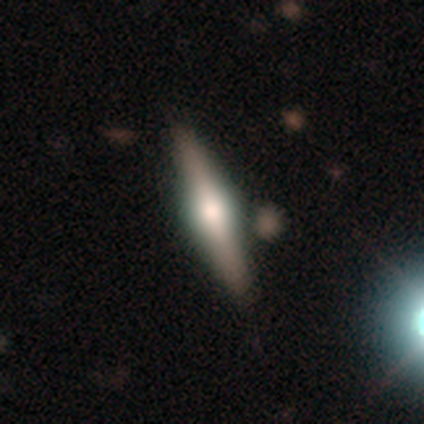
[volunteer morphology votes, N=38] smooth_or_featured: featured or disk (p=0.89) [alt: smooth p=0.05]
disk_edge_on: yes (p=1.00)
edge_on_bulge: rounded (p=0.91) [alt: boxy p=0.09]
merging: none (p=0.75) [alt: minor disturbance p=0.03]